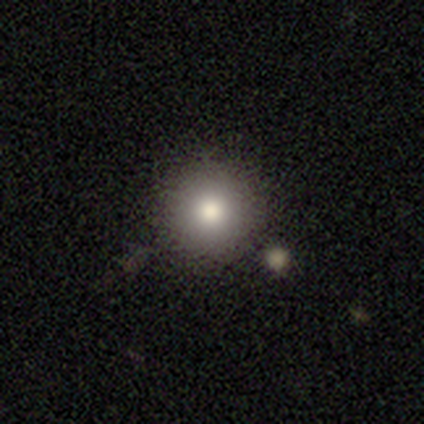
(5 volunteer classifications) smooth_or_featured: smooth (p=0.60) [alt: featured or disk p=0.20]
how_rounded: round (p=1.00)
merging: none (p=1.00)